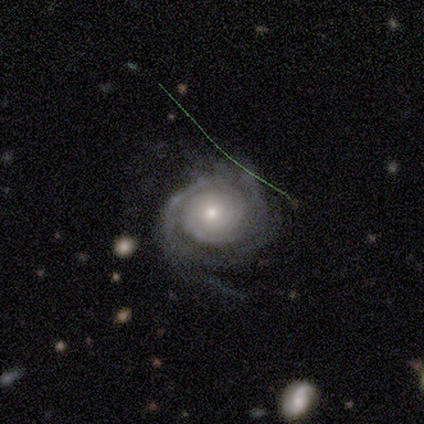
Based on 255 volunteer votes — Volunteers were most divided on "spiral arm count": can't tell: 34%, 2: 30%, 3: 20%, 1: 7%, 4: 6%, more than 4: 3%. More confident: edge-on disk — no (95%); spiral arms — yes (91%); smooth or featured — featured or disk (82%); bar — no (80%); spiral winding — tight (76%); merging — none (68%); bulge size — small (63%).